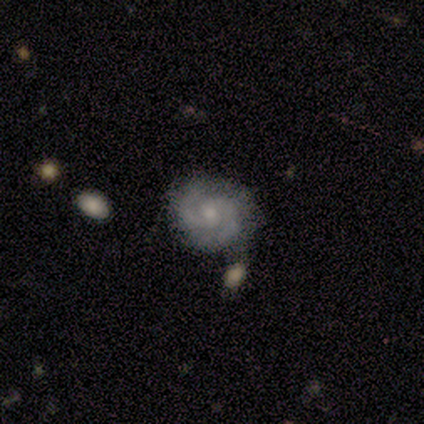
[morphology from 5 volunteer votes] Q: Smooth or featured?
A: featured or disk (60%); runner-up: smooth (40%)
Q: Edge-on disk?
A: no (100%)
Q: Bar?
A: no (67%); runner-up: weak (33%)
Q: Spiral arms?
A: yes (100%)
Q: Spiral winding?
A: medium (100%)
Q: Spiral arm count?
A: 2 (67%); runner-up: can't tell (33%)
Q: Bulge size?
A: moderate (67%); runner-up: small (33%)
Q: Merging?
A: none (60%); runner-up: minor disturbance (40%)